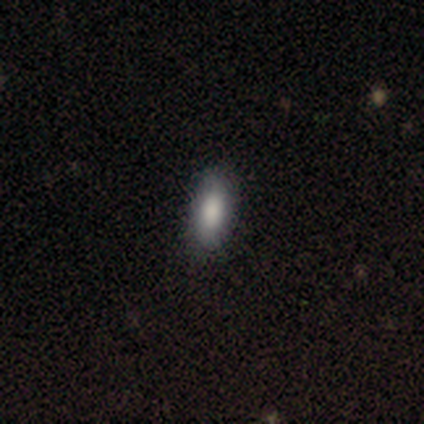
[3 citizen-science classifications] A smooth galaxy with no disk features (67%) that is in between round and cigar-shaped (100%). Merging: none (100%).